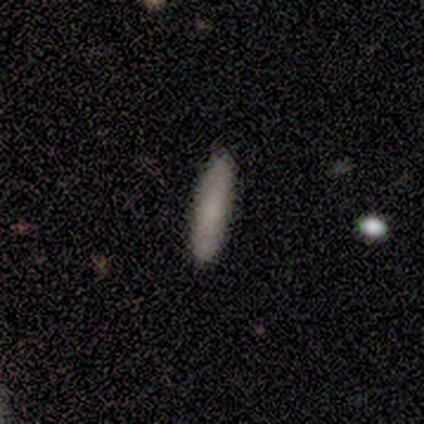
smooth 77%, featured or disk 13%, star or artifact 10%. Down the decision tree: how rounded — cigar-shaped (87%); merging — none (94%).